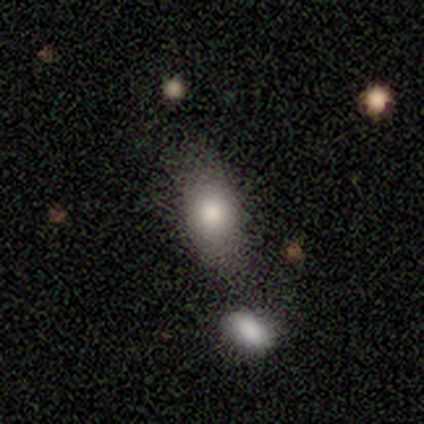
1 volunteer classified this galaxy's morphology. Overall: featured or disk (100%). Edge-on disk: no (100%). Bar: no (100%). Spiral arms: no (100%). Bulge size: moderate (100%). Merging: merger (100%).